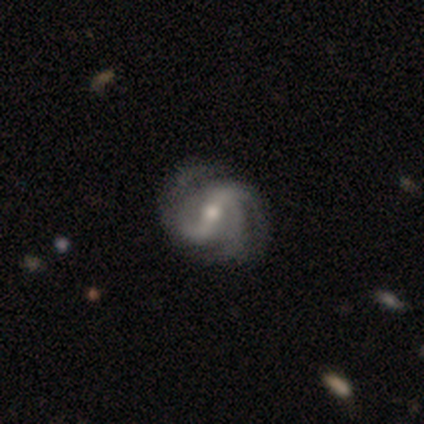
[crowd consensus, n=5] Smooth or featured?
  - featured or disk: 100% *
  - smooth: 0%
  - star or artifact: 0%
Edge-on disk?
  - no: 100% *
  - yes: 0%
Bar?
  - weak: 80% *
  - strong: 20%
  - no: 0%
Spiral arms?
  - yes: 100% *
  - no: 0%
Spiral winding?
  - medium: 60% *
  - tight: 20%
  - loose: 20%
Spiral arm count?
  - 2: 80% *
  - 3: 20%
  - 1: 0%
  - 4: 0%
  - more than 4: 0%
  - can't tell: 0%
Bulge size?
  - moderate: 100% *
  - dominant: 0%
  - large: 0%
  - small: 0%
  - none: 0%
Merging?
  - none: 60% *
  - minor disturbance: 20%
  - merger: 20%
  - major disturbance: 0%